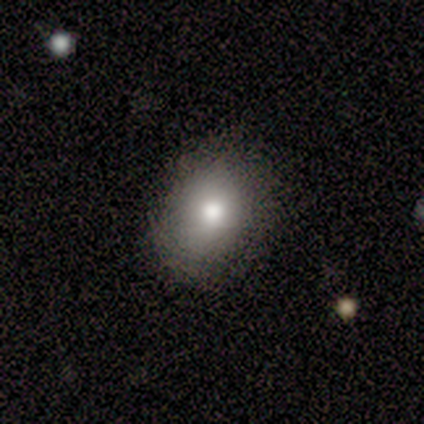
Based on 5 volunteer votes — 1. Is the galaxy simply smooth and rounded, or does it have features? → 100% smooth, 0% featured or disk, 0% star or artifact.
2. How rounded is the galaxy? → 80% round, 20% in between, 0% cigar-shaped.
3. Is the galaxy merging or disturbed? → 60% none, 40% minor disturbance, 0% major disturbance, 0% merger.